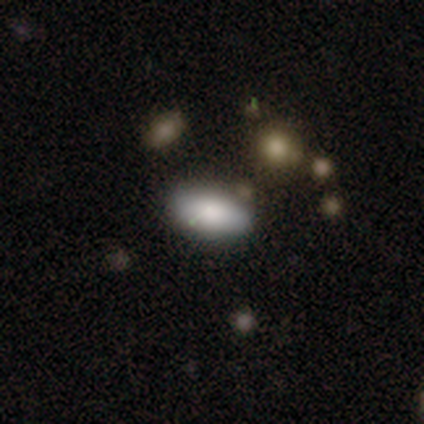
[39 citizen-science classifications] Morphology: type=smooth (82%); roundness=in between (88%); merging=none (75%).